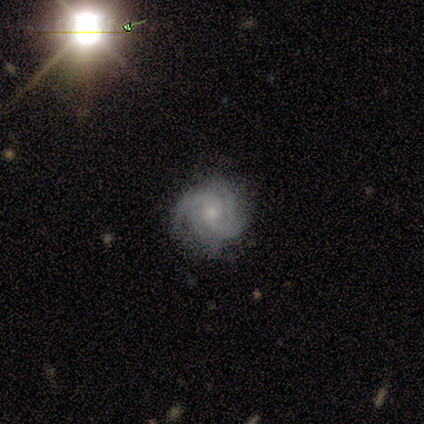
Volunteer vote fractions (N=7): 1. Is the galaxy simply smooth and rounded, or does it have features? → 100% featured or disk, 0% smooth, 0% star or artifact.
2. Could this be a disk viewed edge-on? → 100% no, 0% yes.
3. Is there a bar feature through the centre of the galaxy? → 100% no, 0% strong, 0% weak.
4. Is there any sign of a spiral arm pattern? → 100% yes, 0% no.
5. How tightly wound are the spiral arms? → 57% tight, 43% medium, 0% loose.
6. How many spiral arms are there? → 86% 4, 14% can't tell, 0% 1, 0% 2, 0% 3, 0% more than 4.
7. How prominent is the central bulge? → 86% small, 14% moderate, 0% dominant, 0% large, 0% none.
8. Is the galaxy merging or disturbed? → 100% none, 0% minor disturbance, 0% major disturbance, 0% merger.